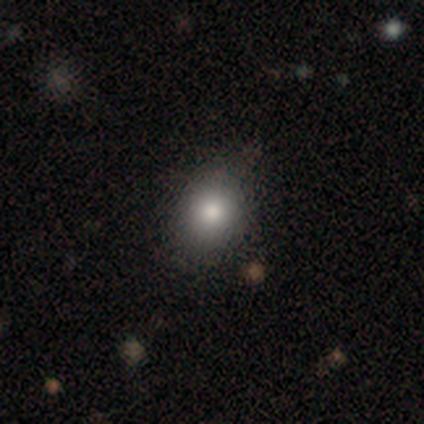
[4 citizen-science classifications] Smooth or featured? 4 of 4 (100%) said smooth. How rounded? 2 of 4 (50%, tied with in between) said round. Merging? 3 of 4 (75%) said none.